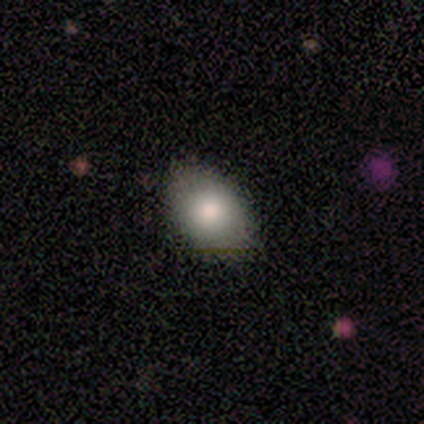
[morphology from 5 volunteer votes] A smooth galaxy with no disk features (80%) that is in between round and cigar-shaped (100%). Merging: none (80%).